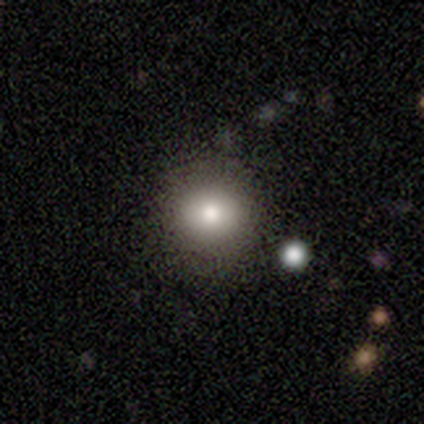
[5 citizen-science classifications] This appears to be a smooth galaxy with no disk features (60%) that is round (100%). Merging: none (100%).